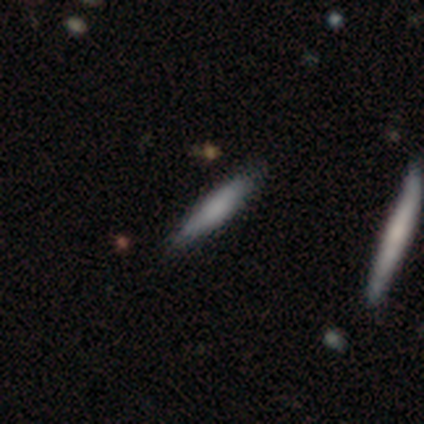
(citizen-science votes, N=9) This appears to be a smooth galaxy with no disk features (78%) that is cigar-shaped (100%). Merging: none (100%).